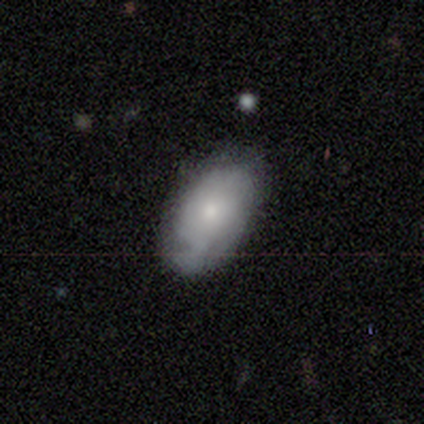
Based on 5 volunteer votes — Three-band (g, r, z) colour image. It shows a smooth galaxy with no disk features (60%) that is in between round and cigar-shaped (100%). Merging: none (50%, tied with minor disturbance).